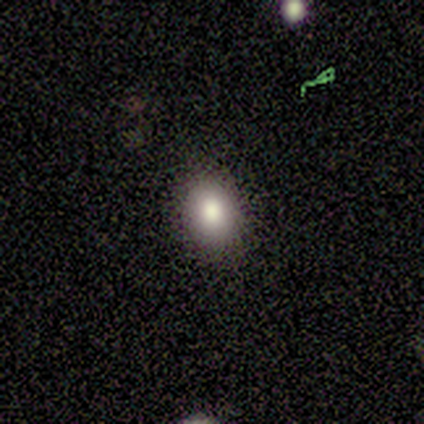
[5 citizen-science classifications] This is clearly a smooth galaxy (100%). How rounded: likely round (60%). Merging: clearly none (100%).